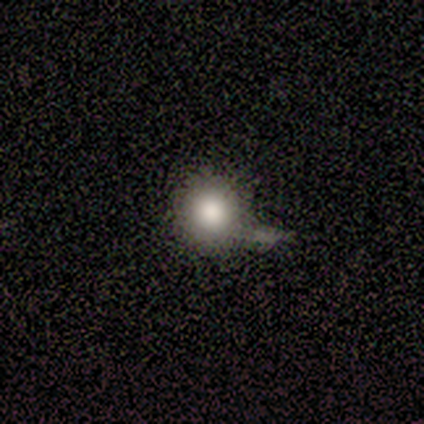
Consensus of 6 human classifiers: smooth_or_featured: smooth (p=0.83) [alt: star or artifact p=0.17]
how_rounded: round (p=1.00)
merging: none (p=0.40) [alt: minor disturbance p=0.20]